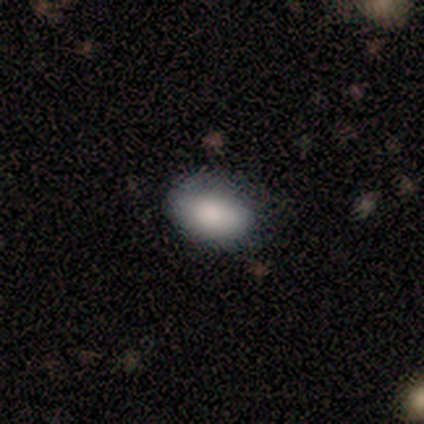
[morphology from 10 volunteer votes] type=smooth (100%); roundness=in between (90%); merging=none (70%).